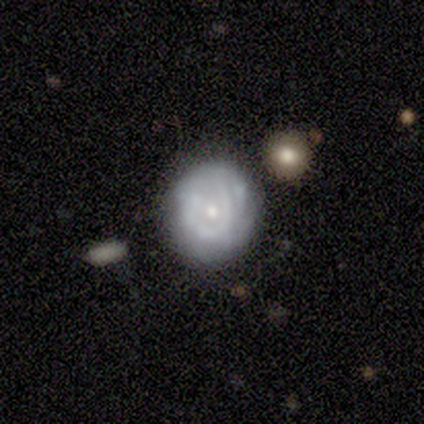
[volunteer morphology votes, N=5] smooth-or-featured: featured or disk: 40% (tied) | star or artifact: 40% (tied) | smooth: 20%
  disk-edge-on: no: 100% | yes: 0%
    bar: no: 100% | strong: 0% | weak: 0%
    has-spiral-arms: yes: 100% | no: 0%
      spiral-winding: tight: 100% | medium: 0% | loose: 0%
      spiral-arm-count: 1: 100% | 2: 0% | 3: 0% | 4: 0% | more than 4: 0% | can't tell: 0%
    bulge-size: small: 100% | dominant: 0% | large: 0% | moderate: 0% | none: 0%
  merging: none: 67% | major disturbance: 33% | minor disturbance: 0% | merger: 0%